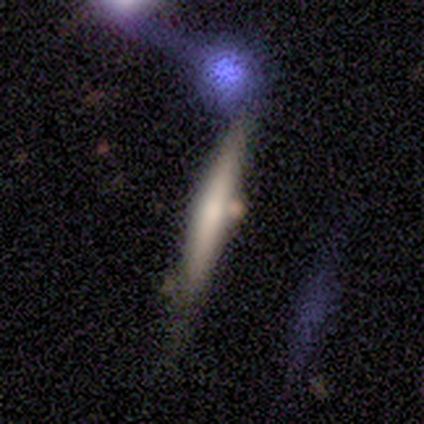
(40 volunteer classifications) Q: Smooth or featured?
A: featured or disk (57%); runner-up: smooth (40%)
Q: Edge-on disk?
A: yes (91%); runner-up: no (9%)
Q: Edge-on bulge?
A: none (67%); runner-up: rounded (33%)
Q: Merging?
A: none (59%); runner-up: minor disturbance (31%)